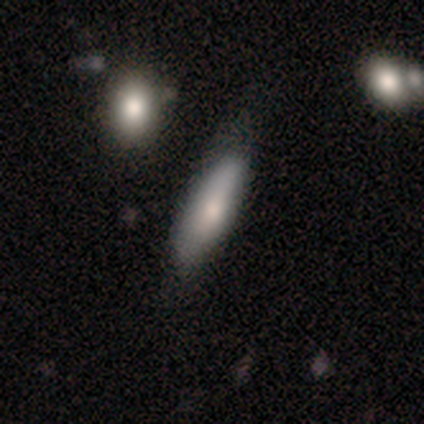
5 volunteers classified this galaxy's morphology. smooth-or-featured: smooth: 60% | featured or disk: 40% | star or artifact: 0%
  how-rounded: cigar-shaped: 100% | round: 0% | in between: 0%
  merging: none: 60% | minor disturbance: 40% | major disturbance: 0% | merger: 0%